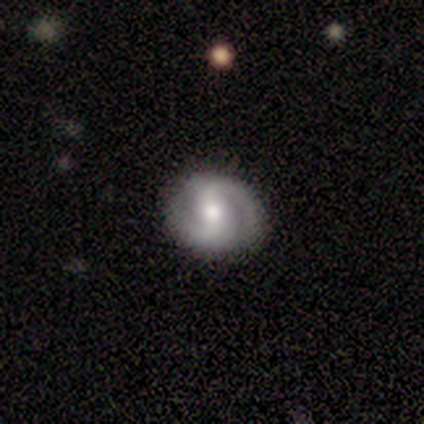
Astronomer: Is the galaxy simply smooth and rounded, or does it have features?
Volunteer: featured or disk — 79%.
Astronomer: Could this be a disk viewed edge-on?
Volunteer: no — 100%.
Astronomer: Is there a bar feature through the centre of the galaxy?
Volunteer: weak — 57%.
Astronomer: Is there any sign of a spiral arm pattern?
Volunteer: yes — 97%.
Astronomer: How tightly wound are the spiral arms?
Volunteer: medium — 52% (runner-up: tight, 45%).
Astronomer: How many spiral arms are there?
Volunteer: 2 — 93%.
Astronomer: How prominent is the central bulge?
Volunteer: moderate — 83%.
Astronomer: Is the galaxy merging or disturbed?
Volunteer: none — 91%.